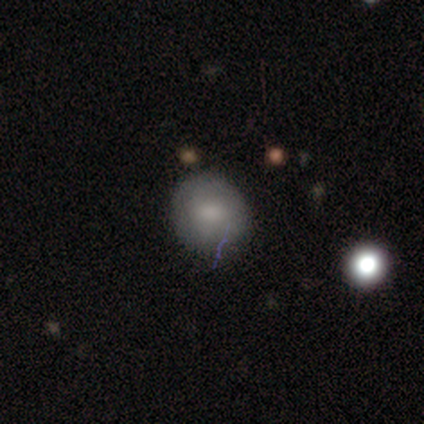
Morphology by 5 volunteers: type=smooth (80%); roundness=round (100%); merging=none (80%).